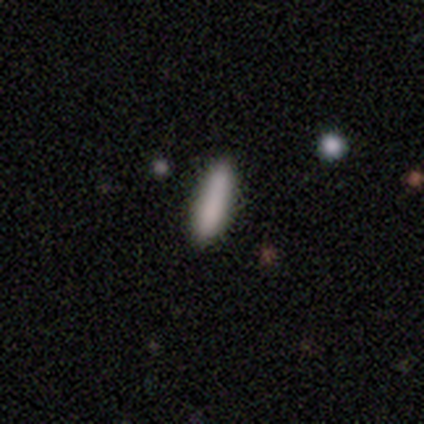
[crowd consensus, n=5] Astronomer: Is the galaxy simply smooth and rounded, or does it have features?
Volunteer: smooth — 100%.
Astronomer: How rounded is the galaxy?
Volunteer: cigar-shaped — 80%.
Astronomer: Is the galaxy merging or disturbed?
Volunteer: none — 80%.